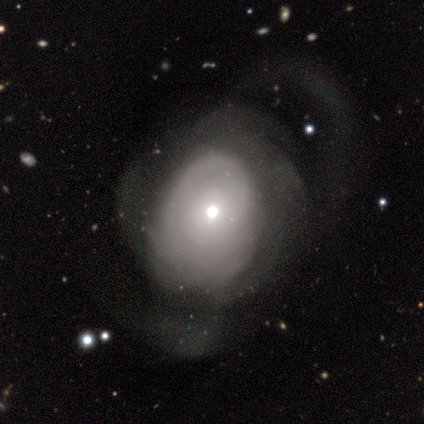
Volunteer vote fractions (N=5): Overall: featured or disk (60%; smooth 20%). Edge-on disk: no (100%). Bar: no (100%). Spiral arms: no (67%; yes 33%). Bulge size: moderate (67%; small 33%). Merging: major disturbance (75%).